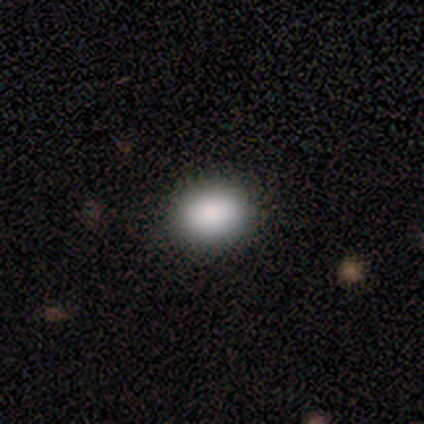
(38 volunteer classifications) A smooth galaxy with no disk features (95%) that is round (50%). Merging: none (92%).